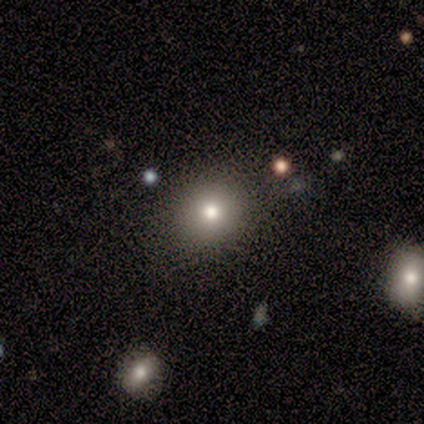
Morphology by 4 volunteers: Smooth or featured?
  - smooth: 75% *
  - featured or disk: 25%
  - star or artifact: 0%
How rounded?
  - round: 67% *
  - in between: 33%
  - cigar-shaped: 0%
Merging?
  - none: 75% *
  - minor disturbance: 25%
  - major disturbance: 0%
  - merger: 0%